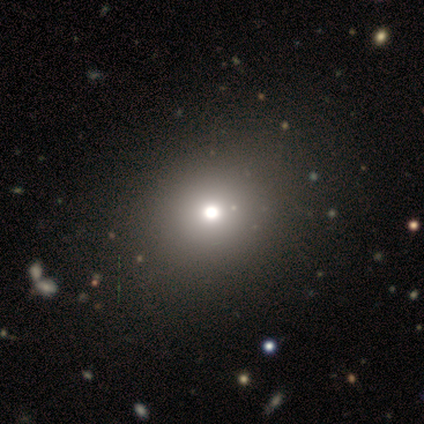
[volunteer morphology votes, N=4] This is likely a smooth galaxy (75%). How rounded: likely round (67%). Merging: clearly none (100%).